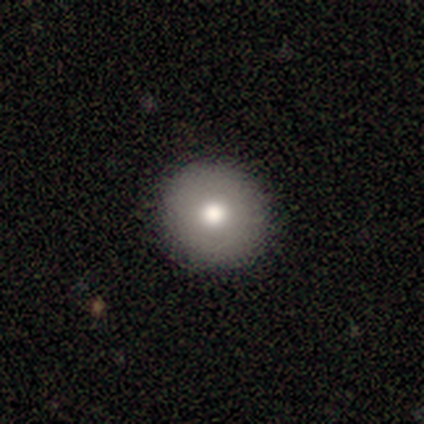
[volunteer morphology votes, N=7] Volunteers were most divided on "smooth or featured": smooth: 71%, featured or disk: 14%, star or artifact: 14%. More confident: how rounded — round (100%); merging — none (100%).